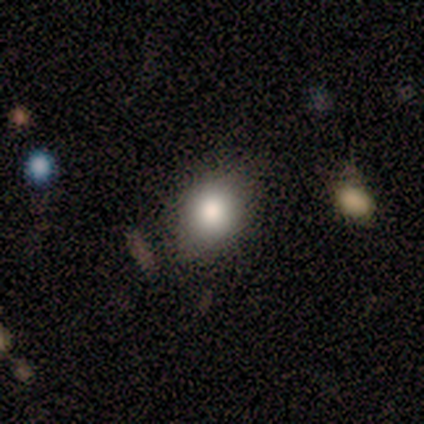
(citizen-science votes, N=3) A smooth galaxy with no disk features (33%, tied with featured or disk and star or artifact) that is round (100%). Merging: none (50%, tied with minor disturbance).